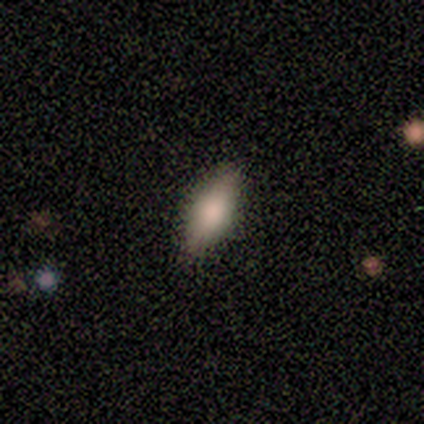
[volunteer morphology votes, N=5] This appears to be a smooth galaxy with no disk features (60%) that is in between round and cigar-shaped (100%). Merging: none (75%).